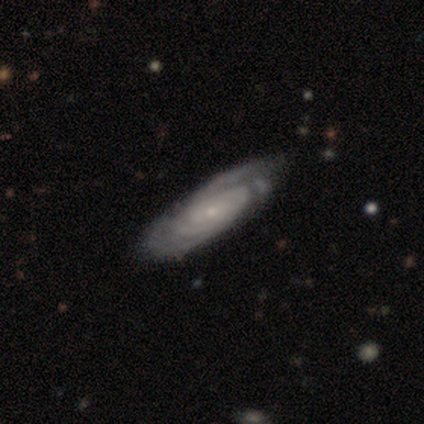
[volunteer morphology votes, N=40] featured or disk 92%, smooth 5%, star or artifact 2%. Down the decision tree: edge-on disk — no (97%); bar — no (78%); spiral arms — yes (100%); spiral arm count — can't tell (42%); spiral winding — tight (78%); bulge size — small (86%); merging — none (46%).